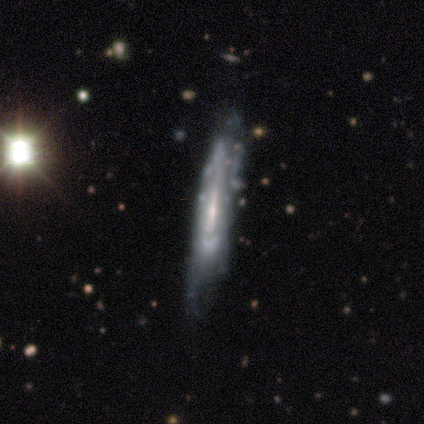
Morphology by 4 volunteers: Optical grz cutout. It shows a featured or disk galaxy (100%) viewed edge-on (50%, tied with no) with no central bulge (50%, tied with rounded). Merging: minor disturbance (75%).